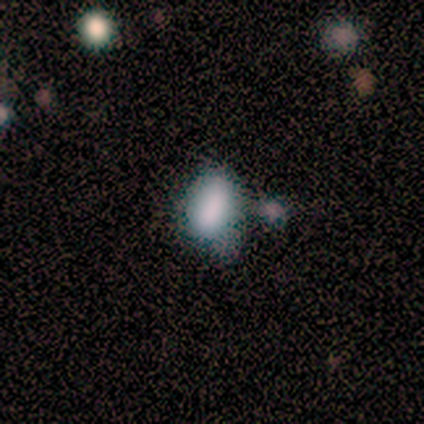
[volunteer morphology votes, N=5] Smooth or featured? smooth (80%)
How rounded? in between (50%)
Merging? none (40%, tied with minor disturbance)